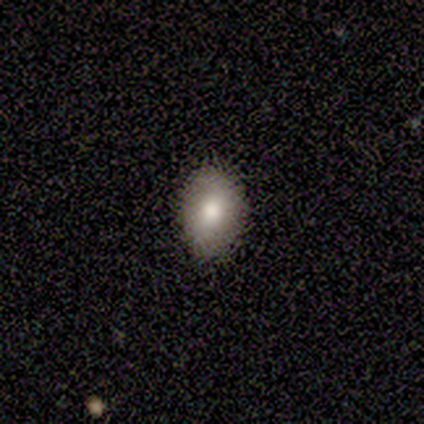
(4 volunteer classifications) Volunteers were most divided on "how rounded": in between: 67%, round: 33%, cigar-shaped: 0%. More confident: merging — none (100%); smooth or featured — smooth (75%).